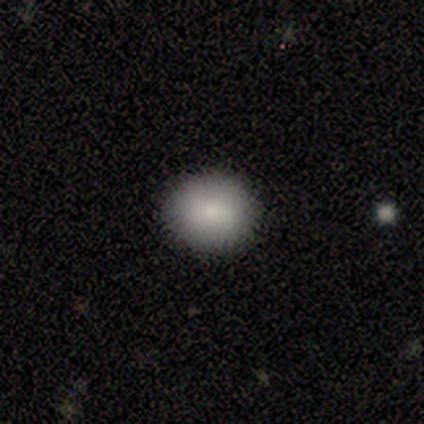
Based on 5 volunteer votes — Smooth or featured?
  - smooth: 100% *
  - featured or disk: 0%
  - star or artifact: 0%
How rounded?
  - round: 60% *
  - in between: 40%
  - cigar-shaped: 0%
Merging?
  - none: 80% *
  - minor disturbance: 20%
  - major disturbance: 0%
  - merger: 0%